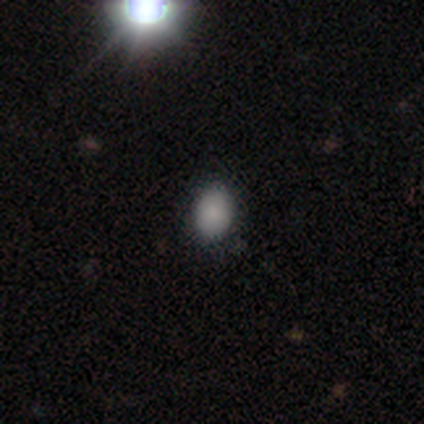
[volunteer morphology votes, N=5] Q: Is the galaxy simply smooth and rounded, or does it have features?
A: smooth — 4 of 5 (80%).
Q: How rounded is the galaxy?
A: in between — 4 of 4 (100%).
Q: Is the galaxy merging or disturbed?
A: none — 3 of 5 (60%).